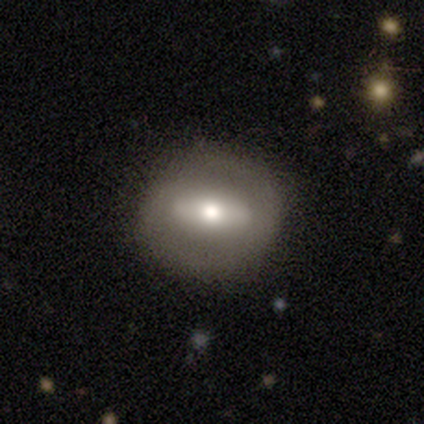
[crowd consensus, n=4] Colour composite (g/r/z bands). It shows a smooth galaxy with no disk features (75%) that is in between round and cigar-shaped (67%). Merging: none (50%, tied with minor disturbance).